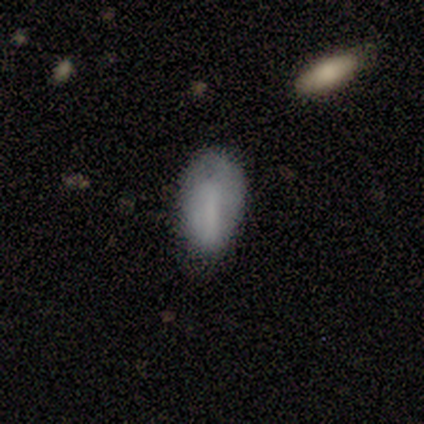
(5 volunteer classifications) smooth 80%, featured or disk 20%, star or artifact 0%. Down the decision tree: how rounded — in between (100%); merging — none (40%, tied with minor disturbance).